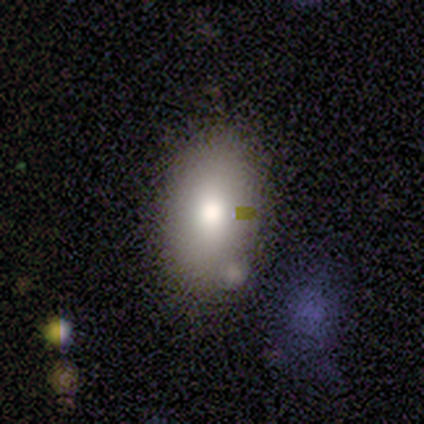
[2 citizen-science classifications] This is clearly a smooth galaxy (100%). How rounded: clearly in between (100%). Merging: clearly none (100%).